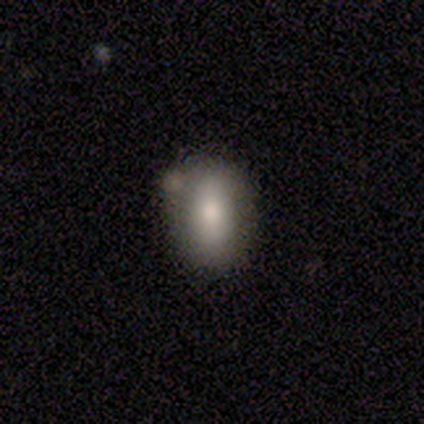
A featured or disk galaxy (60%) with a weak bar (100%), 2 (100%) loose (100%) spiral arms (50%, tied with no) and a moderate central bulge (100%).

Vote fractions:
- Smooth or featured? featured or disk: 60% / smooth: 40% / star or artifact: 0%
- Edge-on disk? no: 67% / yes: 33%
- Bar? weak: 100% / strong: 0% / no: 0%
- Spiral arms? yes: 50% (tied) / no: 50% (tied)
- Spiral winding? loose: 100% / tight: 0% / medium: 0%
- Spiral arm count? 2: 100% / 1: 0% / 3: 0% / 4: 0% / more than 4: 0% / can't tell: 0%
- Bulge size? moderate: 100% / dominant: 0% / large: 0% / small: 0% / none: 0%
- Merging? none: 80% / minor disturbance: 20% / major disturbance: 0% / merger: 0%